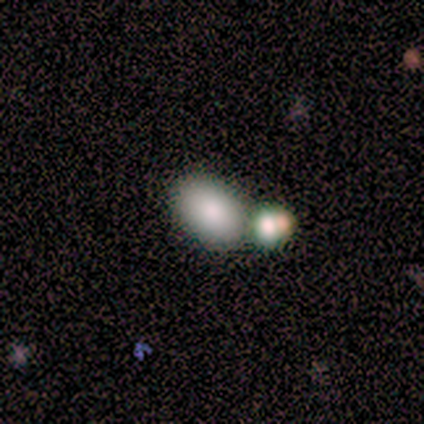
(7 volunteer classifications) Smooth or featured? 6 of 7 (86%) said smooth. How rounded? 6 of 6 (100%) said in between. Merging? 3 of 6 (50%) said merger.